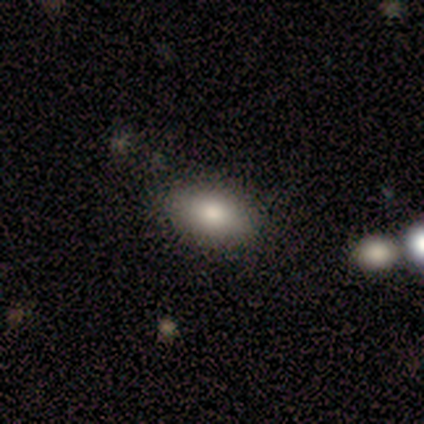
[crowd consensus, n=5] Overall: smooth (80%). How rounded: in between (100%). Merging: none (50%, tied with merger).